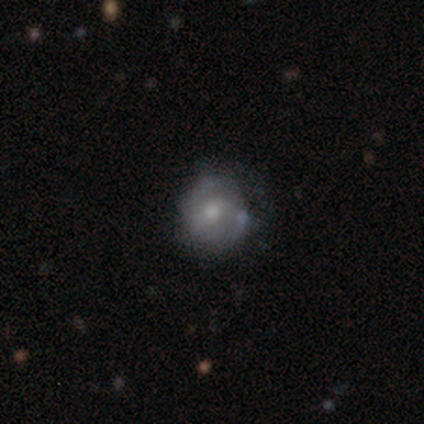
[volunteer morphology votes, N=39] Smooth or featured?
  - featured or disk: 64% *
  - star or artifact: 21%
  - smooth: 15%
Edge-on disk?
  - no: 100% *
  - yes: 0%
Bar?
  - no: 64% *
  - weak: 28%
  - strong: 8%
Spiral arms?
  - yes: 72% *
  - no: 28%
Spiral winding?
  - tight: 33% * (tied)
  - medium: 33% * (tied)
  - loose: 33% * (tied)
Spiral arm count?
  - 2: 50% *
  - 3: 22%
  - can't tell: 17%
  - 1: 11%
  - 4: 0%
  - more than 4: 0%
Bulge size?
  - moderate: 60% *
  - small: 32%
  - dominant: 4%
  - none: 4%
  - large: 0%
Merging?
  - none: 81% *
  - minor disturbance: 16%
  - major disturbance: 3%
  - merger: 0%